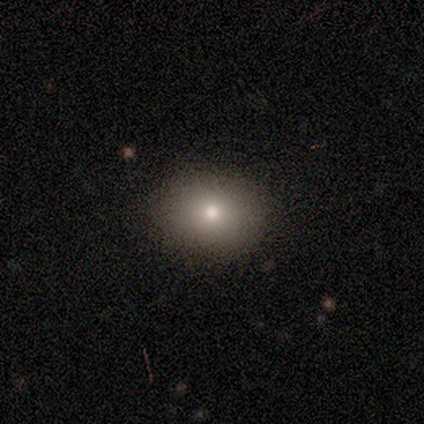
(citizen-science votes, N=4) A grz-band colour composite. It shows a smooth galaxy with no disk features (100%) that is in between round and cigar-shaped (100%). Merging: none (100%).